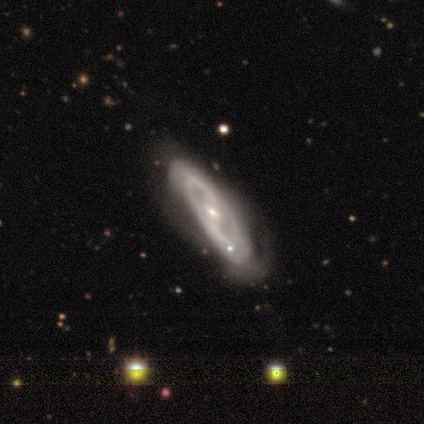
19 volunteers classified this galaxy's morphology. type=featured or disk (84%); edge-on=no (94%); bar=weak (60%); spiral arms=yes (73%); winding=tight (55%); arm count=2 (45%, tied with can't tell); bulge=moderate (47%, tied with small); merging=none (47%).